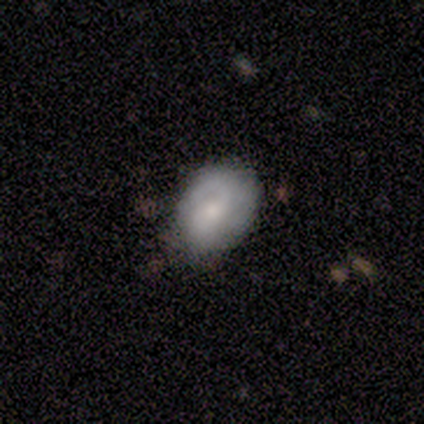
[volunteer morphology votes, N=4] Volunteers were most divided on "smooth or featured" (2-way tie): smooth: 50%, featured or disk: 50%, star or artifact: 0%; "how rounded" (2-way tie): round: 50%, in between: 50%, cigar-shaped: 0%; "merging" (2-way tie): none: 50%, minor disturbance: 50%, major disturbance: 0%, merger: 0%.